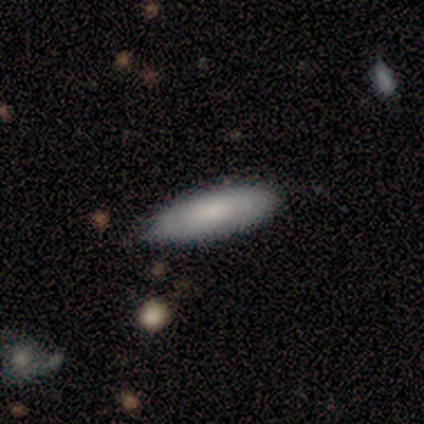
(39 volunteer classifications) Smooth or featured?
  - smooth: 92% *
  - featured or disk: 8%
  - star or artifact: 0%
How rounded?
  - in between: 64% *
  - cigar-shaped: 36%
  - round: 0%
Merging?
  - none: 79% *
  - minor disturbance: 13%
  - major disturbance: 5%
  - merger: 3%